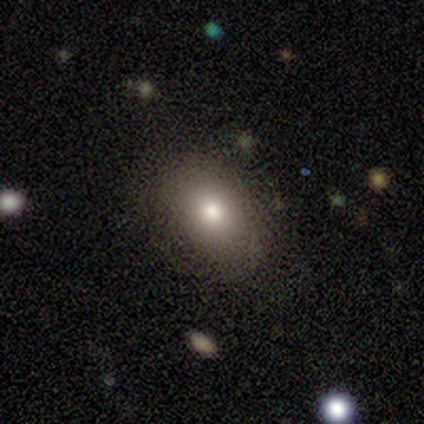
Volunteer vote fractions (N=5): Q: Smooth or featured?
A: smooth (100%)
Q: How rounded?
A: in between (80%); runner-up: round (20%)
Q: Merging?
A: none (100%)